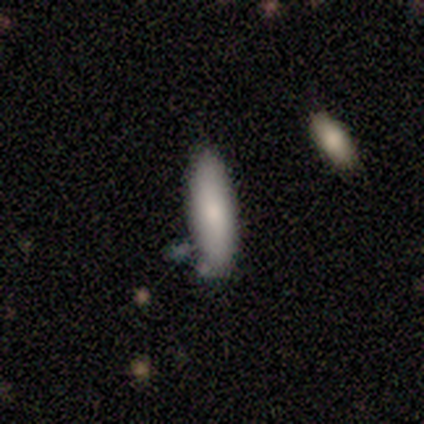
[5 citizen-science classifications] Q: Smooth or featured?
A: smooth (80%); runner-up: star or artifact (20%)
Q: How rounded?
A: in between (50%); tied with: cigar-shaped (50%)
Q: Merging?
A: none (100%)